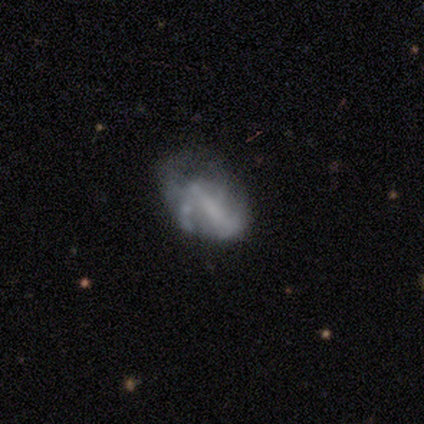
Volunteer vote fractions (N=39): smooth_or_featured: featured or disk (p=0.74) [alt: smooth p=0.13]
disk_edge_on: no (p=1.00)
bar: no (p=0.45) [alt: strong p=0.28]
has_spiral_arms: no (p=0.69) [alt: yes p=0.31]
bulge_size: none (p=0.55) [alt: small p=0.24]
merging: none (p=0.50) [alt: major disturbance p=0.29]